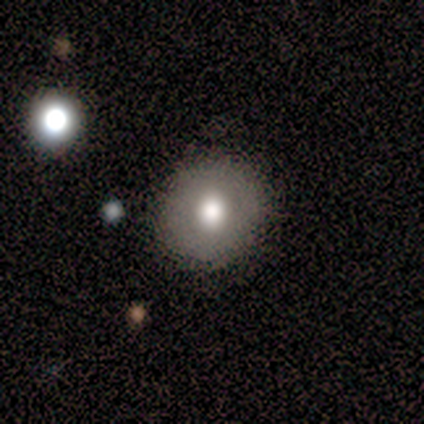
Q: Smooth or featured?
A: smooth (50%); tied with: featured or disk (50%)
Q: How rounded?
A: round (100%)
Q: Merging?
A: none (100%)